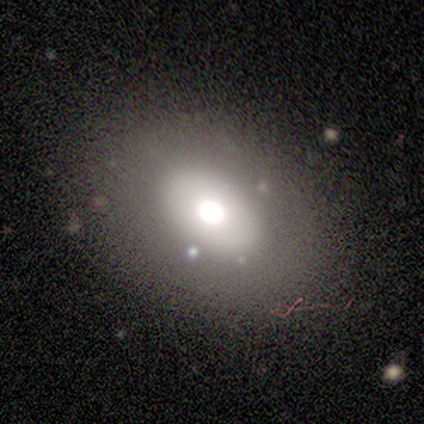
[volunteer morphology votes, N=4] Q: Smooth or featured?
A: smooth (75%); runner-up: star or artifact (25%)
Q: How rounded?
A: in between (67%); runner-up: round (33%)
Q: Merging?
A: major disturbance (67%); runner-up: none (33%)